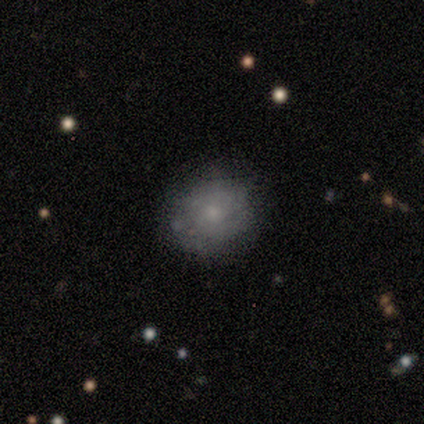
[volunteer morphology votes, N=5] smooth-or-featured: smooth: 60% | featured or disk: 40% | star or artifact: 0%
  how-rounded: round: 100% | in between: 0% | cigar-shaped: 0%
  merging: none: 100% | minor disturbance: 0% | major disturbance: 0% | merger: 0%